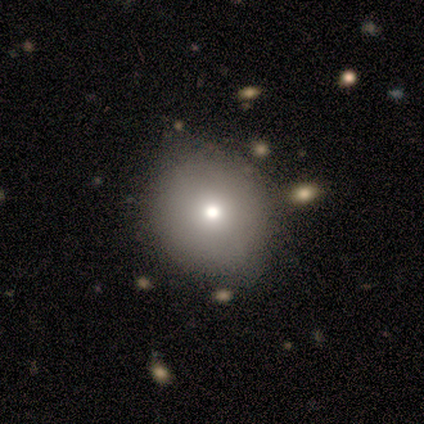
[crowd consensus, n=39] A smooth galaxy with no disk features (79%) that is round (97%).

Vote fractions:
- Smooth or featured? smooth: 79% / featured or disk: 10% / star or artifact: 10%
- How rounded? round: 97% / in between: 3% / cigar-shaped: 0%
- Merging? none: 54% / minor disturbance: 6% / merger: 6% / major disturbance: 0%